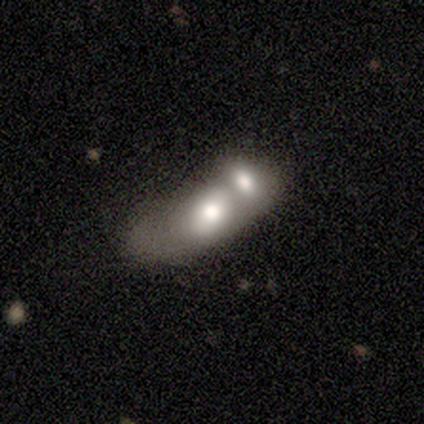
Smooth or featured? 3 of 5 (60%) said featured or disk. Edge-on disk? 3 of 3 (100%) said no. Bar? 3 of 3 (100%) said no. Spiral arms? 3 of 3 (100%) said no. Bulge size? 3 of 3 (100%) said moderate. Merging? 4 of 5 (80%) said merger.